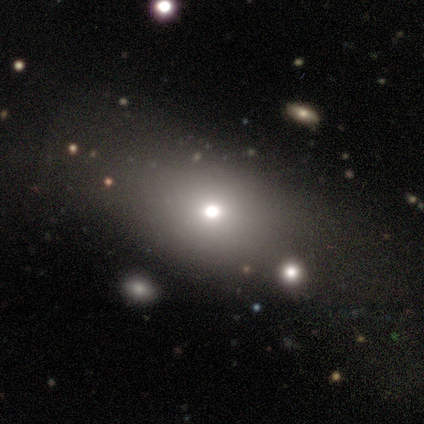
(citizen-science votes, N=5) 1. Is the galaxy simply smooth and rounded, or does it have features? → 80% smooth, 20% star or artifact, 0% featured or disk.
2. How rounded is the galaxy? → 50% in between, 25% round, 25% cigar-shaped.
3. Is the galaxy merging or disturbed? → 100% none, 0% minor disturbance, 0% major disturbance, 0% merger.